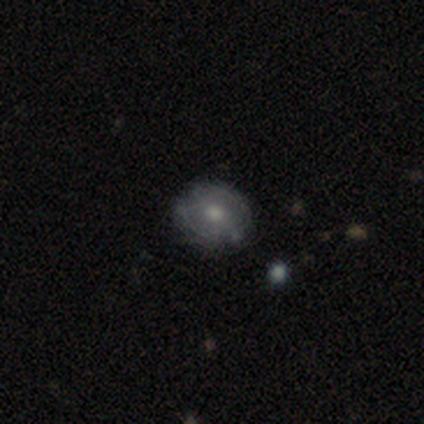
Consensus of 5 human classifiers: Morphology: type=smooth (60%); roundness=round (100%); merging=none (80%).